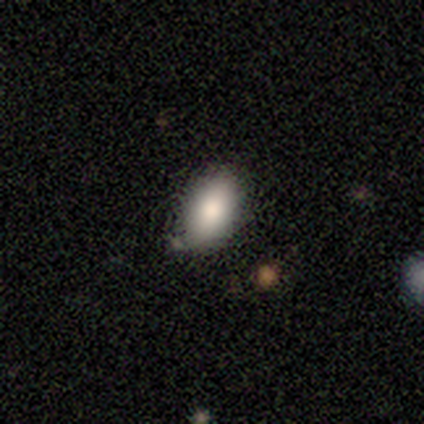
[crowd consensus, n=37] Morphology: type=smooth (92%); roundness=in between (94%); merging=none (78%).